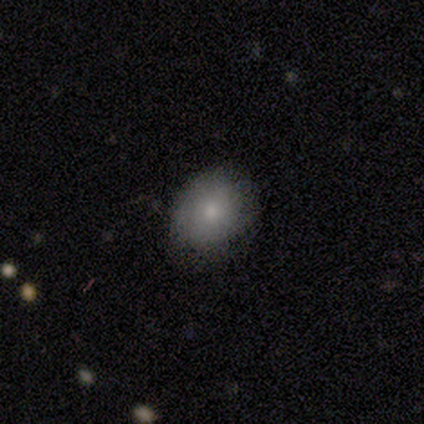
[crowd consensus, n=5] Smooth or featured: smooth — 80% (featured or disk — 20%)
How rounded: in between — 75% (round — 25%)
Merging: none — 100%